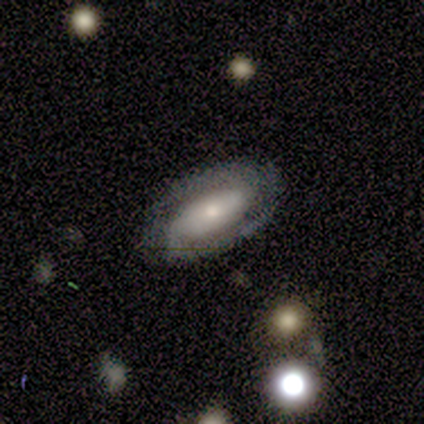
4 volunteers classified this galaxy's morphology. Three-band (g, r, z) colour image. It shows a featured or disk galaxy (100%) with no bar (50%), 2 (100%) medium (67%) spiral arms (75%) and a dominant central bulge (25%, tied with large, moderate and small). Merging: none (100%).